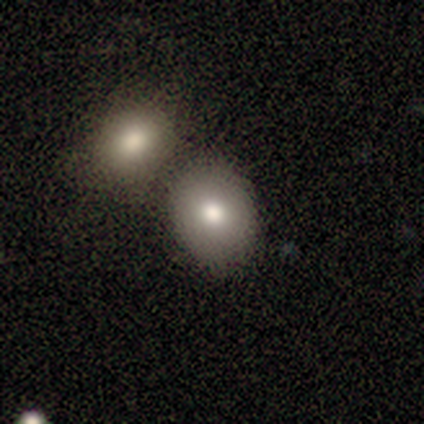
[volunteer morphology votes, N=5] smooth_or_featured: smooth (p=0.80) [alt: star or artifact p=0.20]
how_rounded: round (p=1.00)
merging: none (p=0.75) [alt: merger p=0.25]